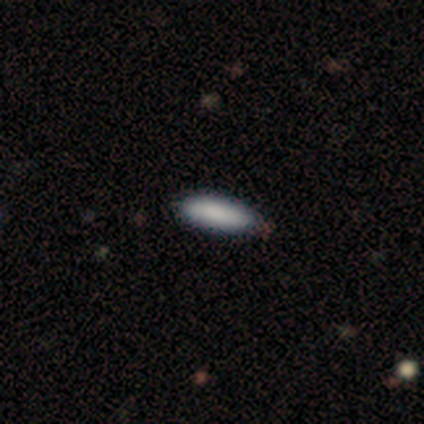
Volunteers were most divided on "how rounded": cigar-shaped: 80%, in between: 20%, round: 0%. More confident: smooth or featured — smooth (100%); merging — none (100%).